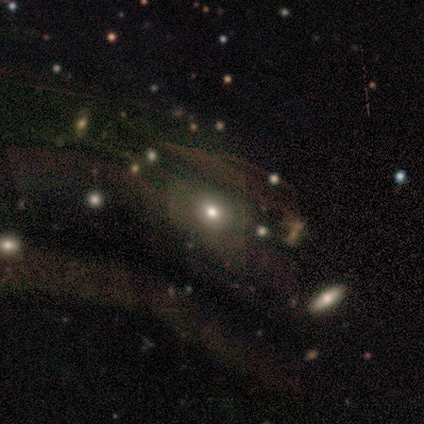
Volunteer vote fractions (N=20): This appears to be a smooth galaxy with no disk features (60%) that is in between round and cigar-shaped (67%). Merging: none (57%).